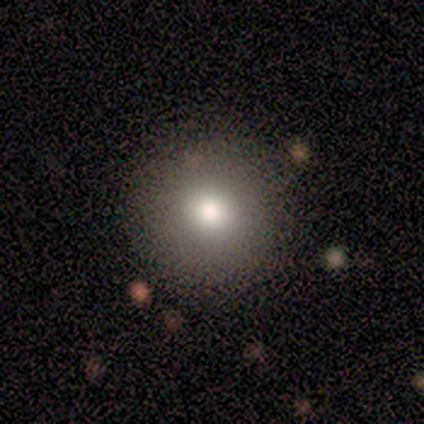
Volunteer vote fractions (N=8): A smooth galaxy with no disk features (62%) that is round (100%). Merging: none (83%).